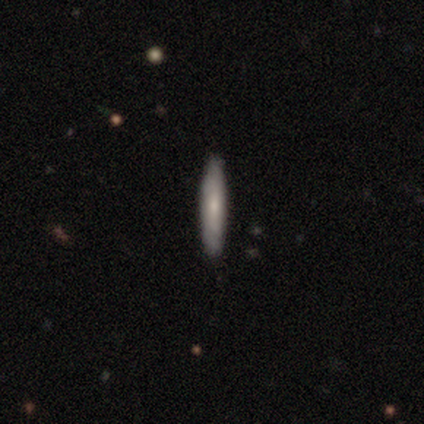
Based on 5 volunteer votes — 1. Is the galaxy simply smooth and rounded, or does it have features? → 100% smooth, 0% featured or disk, 0% star or artifact.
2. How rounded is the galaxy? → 80% cigar-shaped, 20% in between, 0% round.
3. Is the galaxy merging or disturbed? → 100% none, 0% minor disturbance, 0% major disturbance, 0% merger.